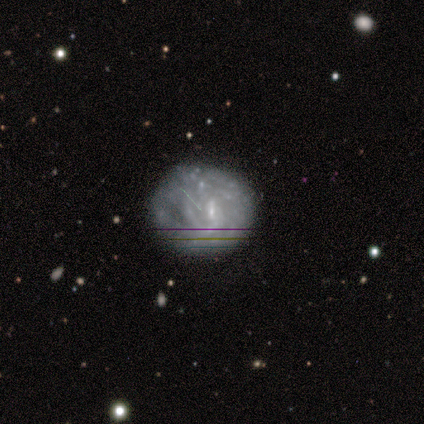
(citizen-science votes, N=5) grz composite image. It shows a featured or disk galaxy (80%) with a weak bar (50%, tied with no), no spiral arms (75%) and a small central bulge (75%). Merging: none (50%, tied with minor disturbance).